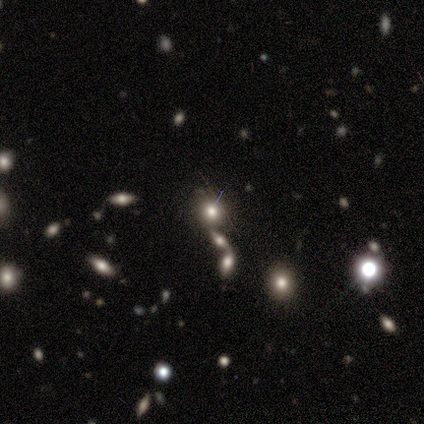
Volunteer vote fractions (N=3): A smooth galaxy with no disk features (67%) that is round (50%, tied with in between).

Vote fractions:
- Smooth or featured? smooth: 67% / star or artifact: 33% / featured or disk: 0%
- How rounded? round: 50% (tied) / in between: 50% (tied) / cigar-shaped: 0%
- Merging? minor disturbance: 50% (tied) / merger: 50% (tied) / none: 0% / major disturbance: 0%